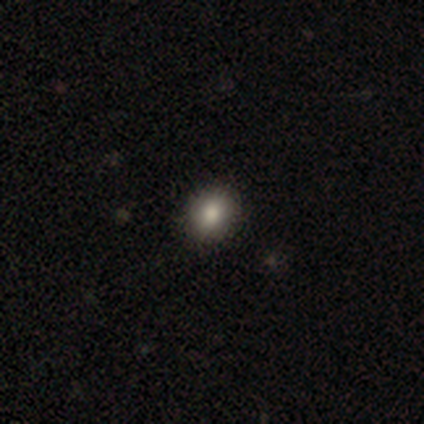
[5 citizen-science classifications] Volunteers were most divided on "how rounded": in between: 60%, round: 40%, cigar-shaped: 0%. More confident: smooth or featured — smooth (100%); merging — none (80%).